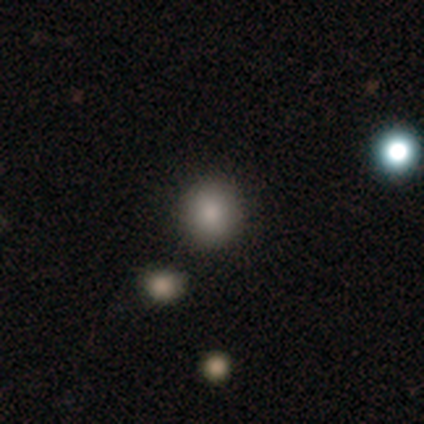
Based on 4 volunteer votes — A smooth galaxy with no disk features (100%) that is round (75%). Merging: none (100%).